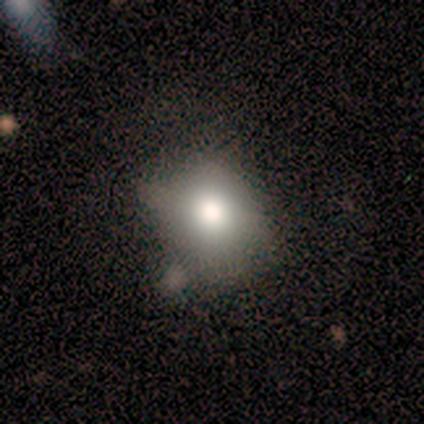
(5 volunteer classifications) smooth-or-featured: smooth: 40% (tied) | featured or disk: 40% (tied) | star or artifact: 20%
  how-rounded: round: 100% | in between: 0% | cigar-shaped: 0%
  merging: none: 100% | minor disturbance: 0% | major disturbance: 0% | merger: 0%